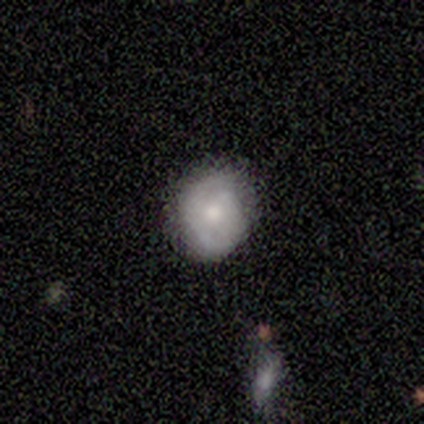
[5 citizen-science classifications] Smooth or featured? featured or disk (60%)
Edge-on disk? no (100%)
Bar? no (67%)
Spiral arms? yes (67%)
Spiral winding? medium (100%)
Spiral arm count? 1 (50%, tied with 2)
Bulge size? moderate (67%)
Merging? none (60%)